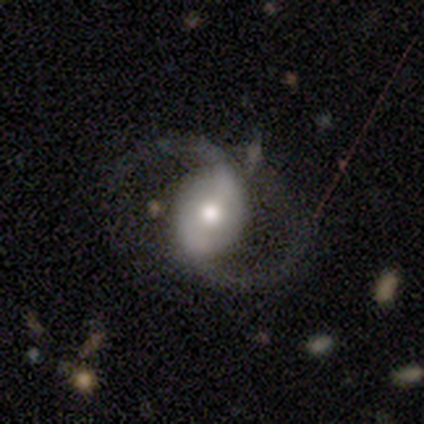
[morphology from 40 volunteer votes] Overall: featured or disk (100%). Edge-on disk: no (100%). Bar: weak (40%; strong 32%). Spiral arms: yes (88%). Spiral arm count: 2 (94%). Spiral winding: loose (54%; medium 37%). Bulge size: moderate (72%). Merging: none (65%).